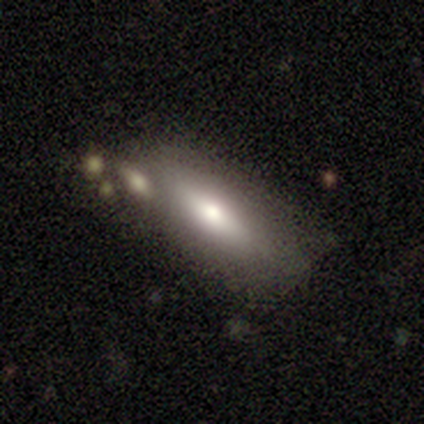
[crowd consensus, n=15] Smooth or featured? 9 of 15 (60%) said smooth. How rounded? 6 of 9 (67%) said in between. Merging? 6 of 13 (46%) said none.